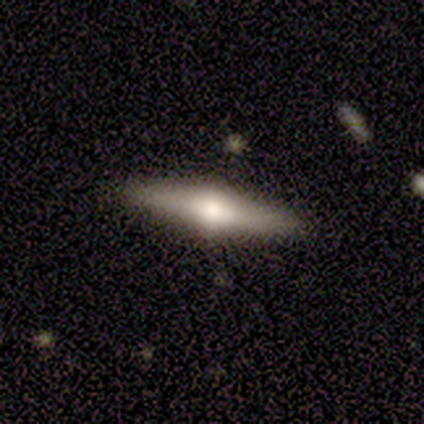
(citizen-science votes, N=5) Smooth or featured? 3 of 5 (60%) said featured or disk. Edge-on disk? 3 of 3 (100%) said yes. Edge-on bulge? 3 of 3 (100%) said rounded. Merging? 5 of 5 (100%) said none.